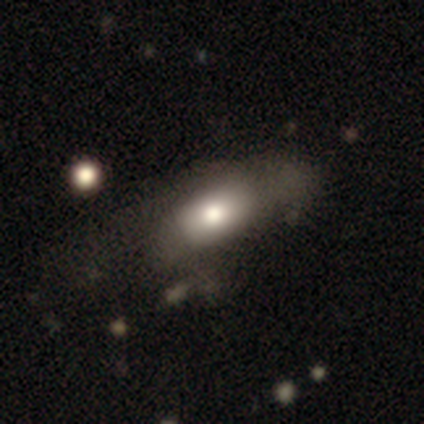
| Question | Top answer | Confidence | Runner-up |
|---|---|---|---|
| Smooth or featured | smooth | 77% | featured or disk (18%) |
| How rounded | in between | 87% | cigar-shaped (10%) |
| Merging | minor disturbance | 35% | none (32%) |